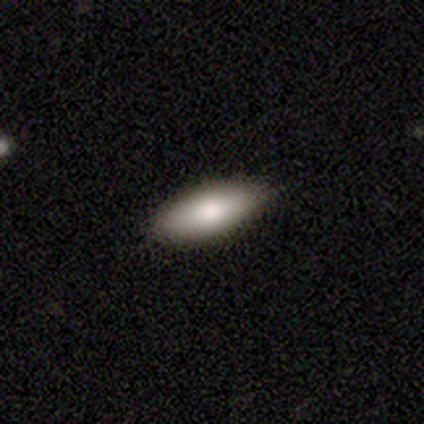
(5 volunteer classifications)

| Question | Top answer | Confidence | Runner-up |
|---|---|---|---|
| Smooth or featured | smooth | 100% | — |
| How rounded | in between | 100% | — |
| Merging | none | 80% | minor disturbance (20%) |